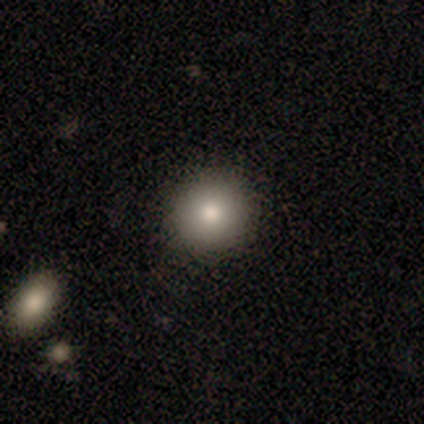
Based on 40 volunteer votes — Morphology: type=smooth (88%); roundness=round (100%); merging=none (95%).